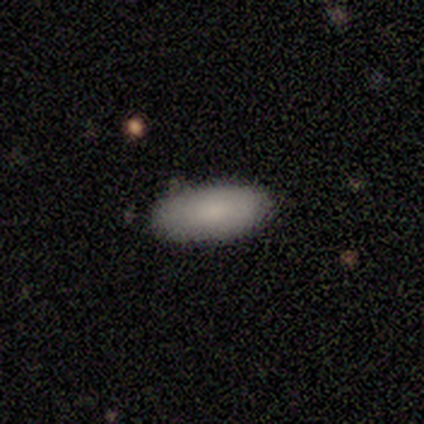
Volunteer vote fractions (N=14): Smooth or featured? 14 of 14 (100%) said smooth. How rounded? 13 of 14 (93%) said in between. Merging? 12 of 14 (86%) said none.